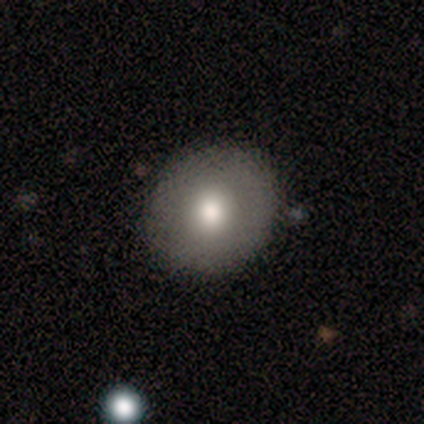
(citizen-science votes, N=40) Overall: smooth (80%). How rounded: round (91%). Merging: none (92%).